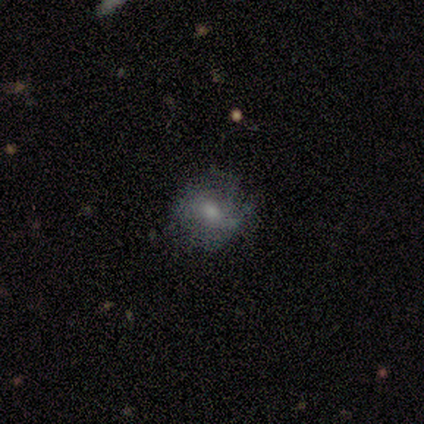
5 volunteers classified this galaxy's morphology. This appears to be a smooth galaxy with no disk features (40%, tied with featured or disk) that is round (100%). Merging: none (50%, tied with minor disturbance).